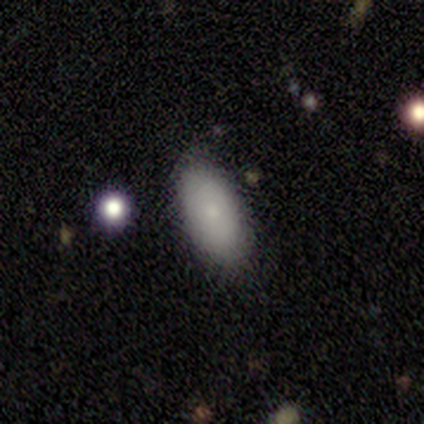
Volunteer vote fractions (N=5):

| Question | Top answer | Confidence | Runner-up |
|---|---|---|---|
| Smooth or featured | smooth | 100% | — |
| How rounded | in between | 100% | — |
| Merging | none | 80% | minor disturbance (20%) |